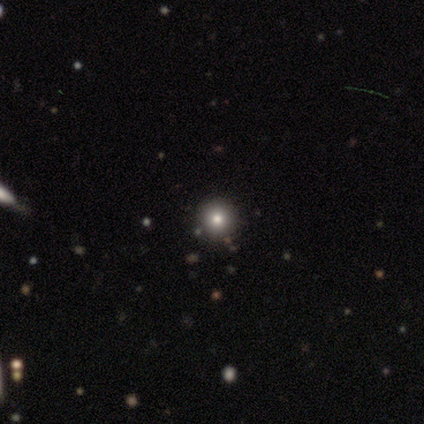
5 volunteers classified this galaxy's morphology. Q: Smooth or featured?
A: smooth (100%)
Q: How rounded?
A: round (100%)
Q: Merging?
A: none (100%)